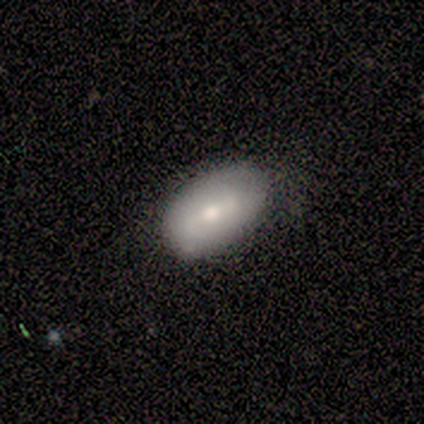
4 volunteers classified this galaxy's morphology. Overall: smooth (100%). How rounded: in between (75%). Merging: none (75%).